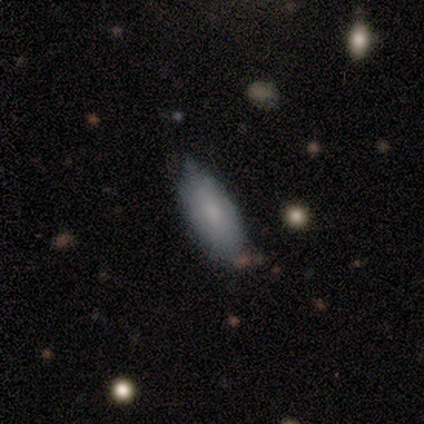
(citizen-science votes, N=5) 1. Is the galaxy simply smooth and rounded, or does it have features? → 80% smooth, 20% featured or disk, 0% star or artifact.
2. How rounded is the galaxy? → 100% in between, 0% round, 0% cigar-shaped.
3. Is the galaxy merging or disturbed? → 40% none (tied), 40% minor disturbance (tied), 20% major disturbance, 0% merger.